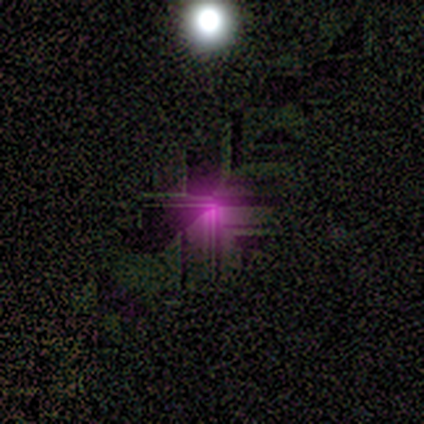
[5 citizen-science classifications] Smooth or featured: star or artifact — 80% (smooth — 20%)